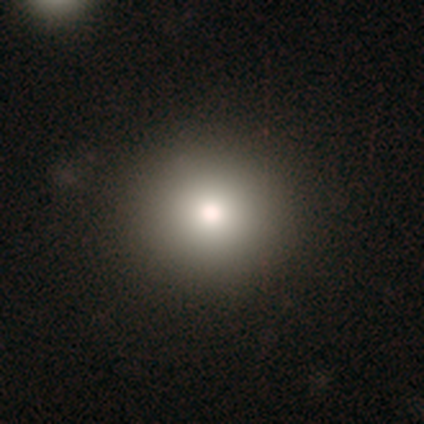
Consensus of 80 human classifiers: Smooth or featured? 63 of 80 (79%) said smooth. How rounded? 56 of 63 (89%) said round. Merging? 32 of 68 (47%) said none.